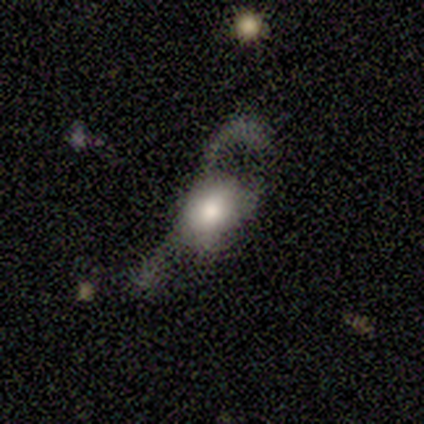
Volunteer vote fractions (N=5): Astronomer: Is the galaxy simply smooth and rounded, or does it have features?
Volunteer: smooth — 80%.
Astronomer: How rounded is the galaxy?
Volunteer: in between — 100%.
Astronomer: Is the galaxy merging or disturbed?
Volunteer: major disturbance — 80%.